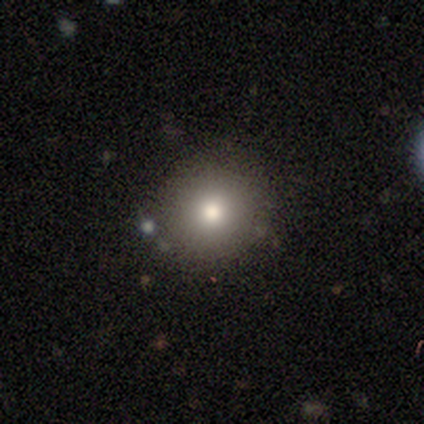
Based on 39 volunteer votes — Smooth or featured: smooth — 82% (featured or disk — 13%)
How rounded: round — 94% (in between — 6%)
Merging: none — 92% (merger — 5%)